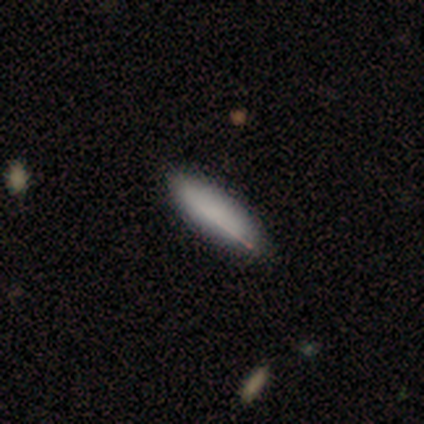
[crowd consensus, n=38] Morphology: type=smooth (79%); roundness=cigar-shaped (67%); merging=none (94%).